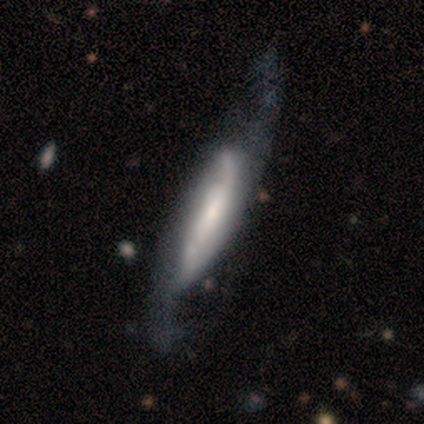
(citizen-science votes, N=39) Smooth or featured? featured or disk (77%)
Edge-on disk? no (77%)
Bar? no (43%)
Spiral arms? yes (91%)
Spiral winding? loose (62%)
Spiral arm count? 2 (67%)
Bulge size? small (57%)
Merging? none (41%)